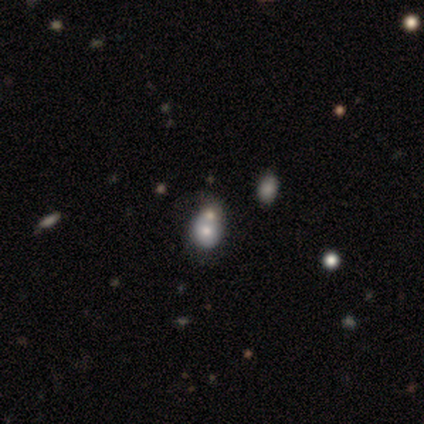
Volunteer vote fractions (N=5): Smooth or featured: smooth — 80% (star or artifact — 20%)
How rounded: round — 75% (in between — 25%)
Merging: none — 75% (minor disturbance — 25%)